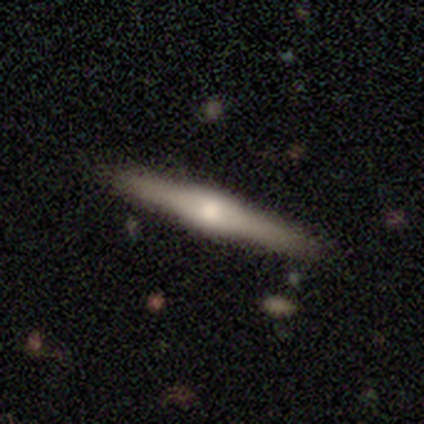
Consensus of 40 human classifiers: A featured or disk galaxy (72%) viewed edge-on (100%) with a rounded central bulge (83%).

Vote fractions:
- Smooth or featured? featured or disk: 72% / smooth: 25% / star or artifact: 2%
- Edge-on disk? yes: 100% / no: 0%
- Edge-on bulge? rounded: 83% / boxy: 17% / none: 0%
- Merging? none: 90% / minor disturbance: 8% / major disturbance: 3% / merger: 0%